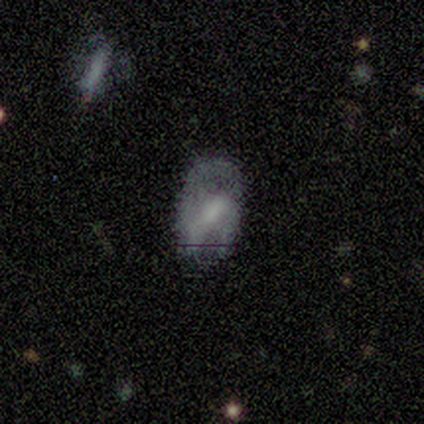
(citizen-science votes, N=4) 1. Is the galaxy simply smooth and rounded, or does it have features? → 75% featured or disk, 25% smooth, 0% star or artifact.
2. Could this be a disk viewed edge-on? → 100% no, 0% yes.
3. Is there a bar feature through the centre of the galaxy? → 100% weak, 0% strong, 0% no.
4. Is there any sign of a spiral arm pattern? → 67% yes, 33% no.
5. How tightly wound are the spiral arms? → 50% medium (tied), 50% loose (tied), 0% tight.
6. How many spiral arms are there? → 50% 1 (tied), 50% can't tell (tied), 0% 2, 0% 3, 0% 4, 0% more than 4.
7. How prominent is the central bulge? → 100% small, 0% dominant, 0% large, 0% moderate, 0% none.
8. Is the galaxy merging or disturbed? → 75% none, 25% major disturbance, 0% minor disturbance, 0% merger.